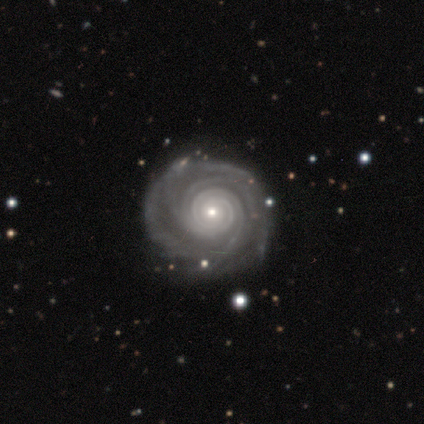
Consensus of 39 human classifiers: Morphology: type=featured or disk (97%); edge-on=no (100%); bar=no (87%); spiral arms=yes (97%); winding=tight (84%); arm count=4 (35%); bulge=small (71%); merging=none (85%).